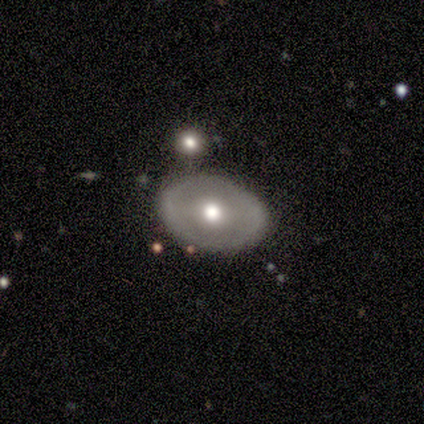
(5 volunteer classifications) smooth 80%, featured or disk 20%, star or artifact 0%. Down the decision tree: how rounded — in between (75%); merging — none (40%, tied with minor disturbance).